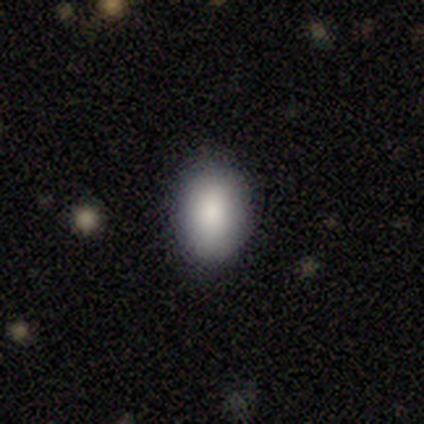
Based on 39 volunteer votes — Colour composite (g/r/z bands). It shows a smooth galaxy with no disk features (87%) that is in between round and cigar-shaped (85%). Merging: none (81%).